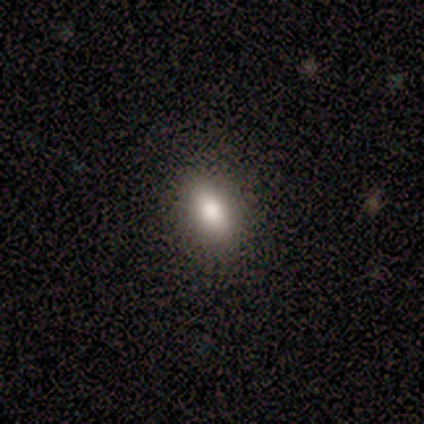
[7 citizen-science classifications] A smooth galaxy with no disk features (57%) that is in between round and cigar-shaped (75%).

Vote fractions:
- Smooth or featured? smooth: 57% / star or artifact: 29% / featured or disk: 14%
- How rounded? in between: 75% / round: 25% / cigar-shaped: 0%
- Merging? none: 100% / minor disturbance: 0% / major disturbance: 0% / merger: 0%